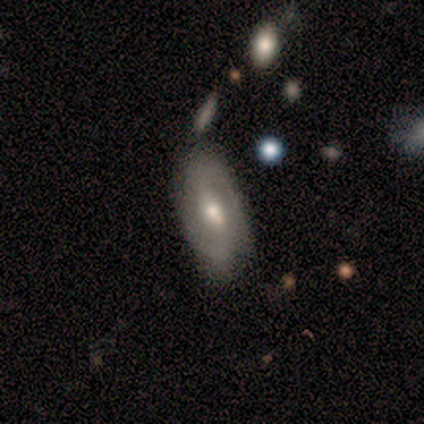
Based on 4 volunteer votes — Q: Smooth or featured?
A: featured or disk (100%)
Q: Edge-on disk?
A: no (100%)
Q: Bar?
A: weak (50%); runner-up: strong (25%)
Q: Spiral arms?
A: yes (50%); tied with: no (50%)
Q: Spiral winding?
A: tight (100%)
Q: Spiral arm count?
A: 2 (100%)
Q: Bulge size?
A: moderate (75%); runner-up: small (25%)
Q: Merging?
A: none (75%); runner-up: minor disturbance (25%)